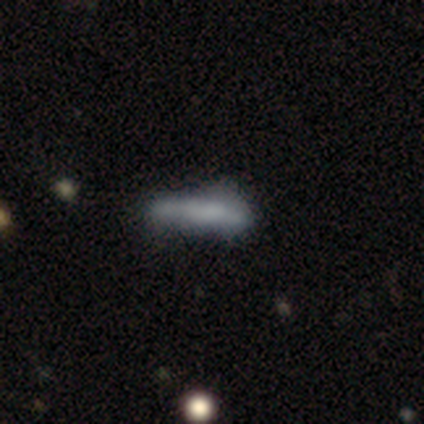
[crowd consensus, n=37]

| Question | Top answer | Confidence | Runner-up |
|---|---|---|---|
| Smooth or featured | smooth | 62% | featured or disk (30%) |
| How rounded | cigar-shaped | 78% | in between (17%) |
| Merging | none | 44% | minor disturbance (29%) |